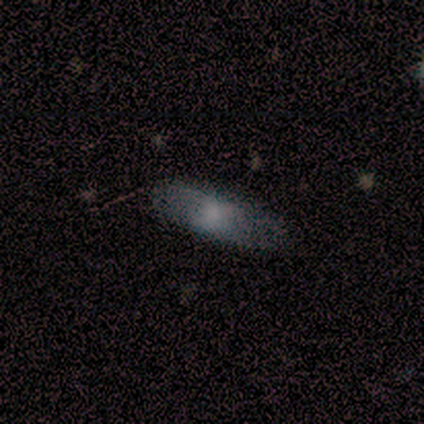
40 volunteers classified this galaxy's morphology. smooth 60%, featured or disk 35%, star or artifact 5%. Down the decision tree: how rounded — in between (71%); merging — none (55%).